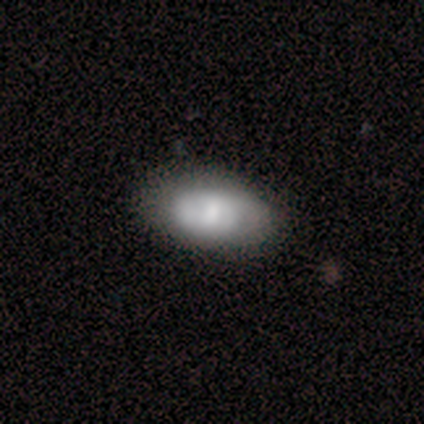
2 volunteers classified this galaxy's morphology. Smooth or featured: smooth — 50% (tied with featured or disk — 50%)
How rounded: in between — 100%
Merging: none — 50% (tied with minor disturbance — 50%)